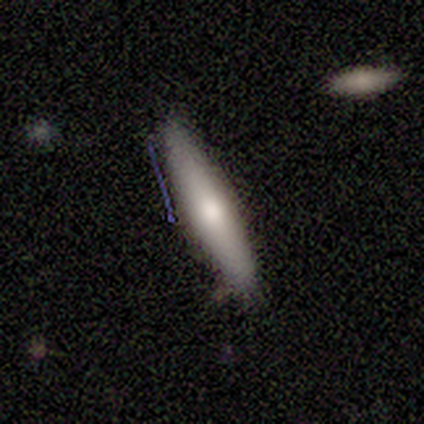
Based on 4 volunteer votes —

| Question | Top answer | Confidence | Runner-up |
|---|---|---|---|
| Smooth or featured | smooth | 100% | — |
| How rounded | cigar-shaped | 75% | in between (25%) |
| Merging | none | 75% | minor disturbance (25%) |